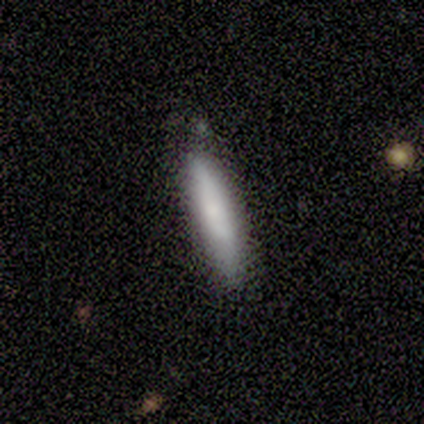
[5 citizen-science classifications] Smooth or featured?
  - smooth: 100% *
  - featured or disk: 0%
  - star or artifact: 0%
How rounded?
  - cigar-shaped: 80% *
  - in between: 20%
  - round: 0%
Merging?
  - none: 60% *
  - minor disturbance: 40%
  - major disturbance: 0%
  - merger: 0%